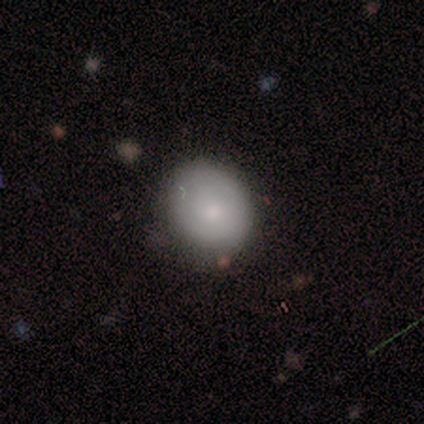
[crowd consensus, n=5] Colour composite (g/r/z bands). It shows a smooth galaxy with no disk features (60%) that is in between round and cigar-shaped (67%). Merging: none (67%).